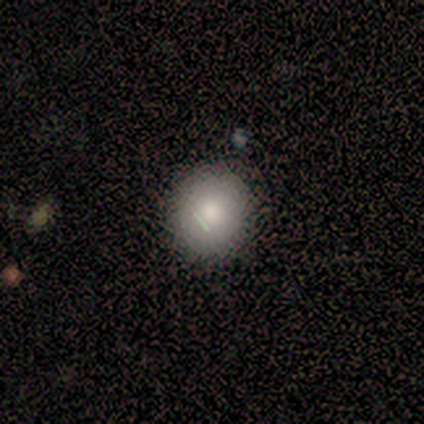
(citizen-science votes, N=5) smooth_or_featured: smooth (p=1.00)
how_rounded: round (p=0.80) [alt: in between p=0.20]
merging: none (p=1.00)